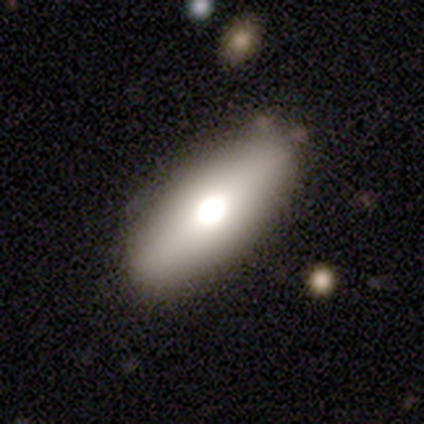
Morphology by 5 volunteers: smooth 80%, star or artifact 20%, featured or disk 0%. Down the decision tree: how rounded — in between (100%); merging — none (100%).